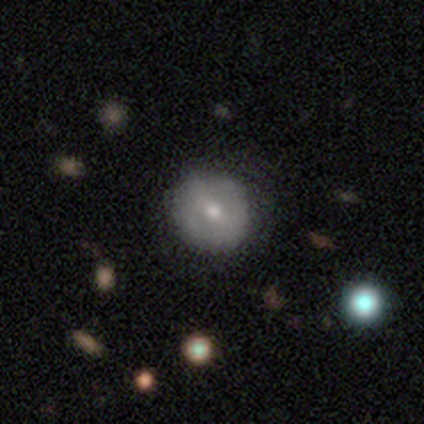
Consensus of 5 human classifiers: smooth_or_featured: smooth (p=0.60) [alt: featured or disk p=0.40]
how_rounded: round (p=1.00)
merging: none (p=1.00)